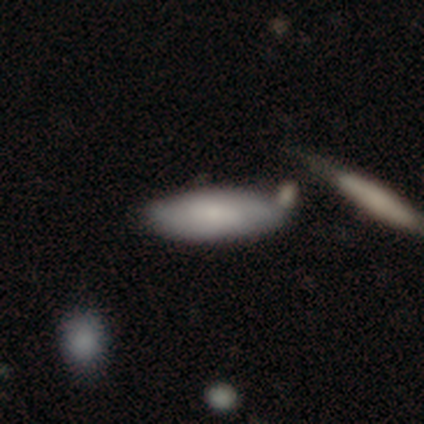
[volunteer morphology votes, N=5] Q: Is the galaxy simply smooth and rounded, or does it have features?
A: smooth — 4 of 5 (80%).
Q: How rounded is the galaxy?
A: in between — 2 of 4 (50%, tied with cigar-shaped).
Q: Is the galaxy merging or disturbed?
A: none — 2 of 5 (40%, tied with minor disturbance).